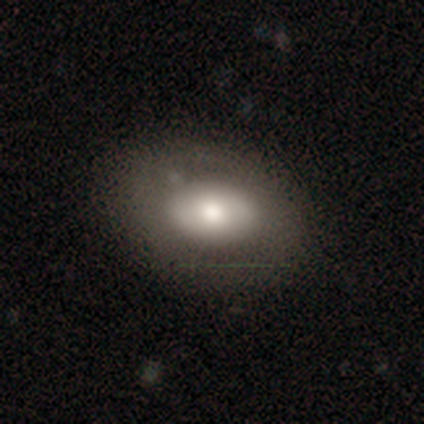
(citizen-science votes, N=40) This appears to be a smooth galaxy with no disk features (60%) that is in between round and cigar-shaped (92%). Merging: none (74%).